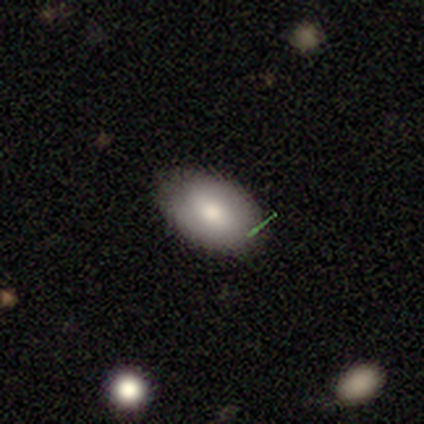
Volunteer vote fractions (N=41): Overall: smooth (78%). How rounded: in between (91%). Merging: none (78%).